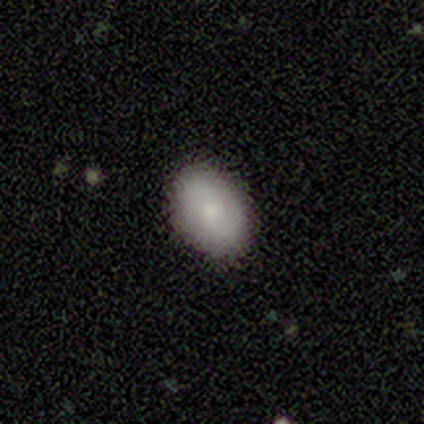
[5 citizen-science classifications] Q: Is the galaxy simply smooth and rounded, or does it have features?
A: smooth — 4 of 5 (80%).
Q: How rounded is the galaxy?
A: in between — 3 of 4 (75%).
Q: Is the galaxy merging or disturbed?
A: none — 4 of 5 (80%).